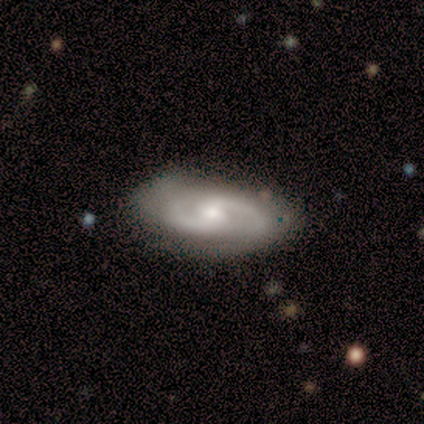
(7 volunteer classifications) Morphology: type=featured or disk (71%); edge-on=no (100%); bar=weak (60%); spiral arms=yes (100%); winding=medium (40%, tied with loose); arm count=2 (100%); bulge=moderate (80%); merging=none (83%).